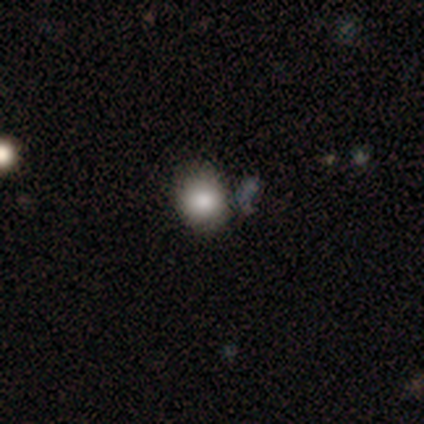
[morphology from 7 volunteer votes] smooth 86%, star or artifact 14%, featured or disk 0%. Down the decision tree: how rounded — round (67%); merging — none (50%).